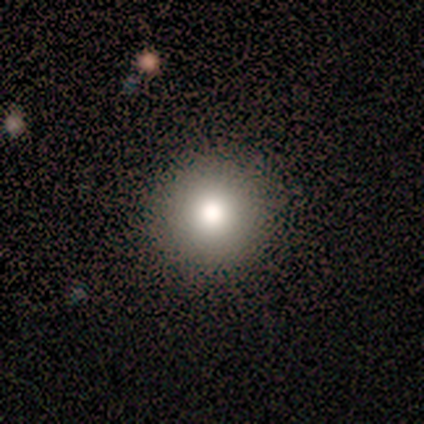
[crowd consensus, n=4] Morphology: type=smooth (75%); roundness=round (100%); merging=none (100%).